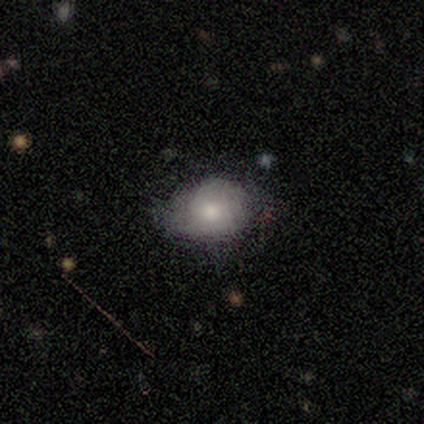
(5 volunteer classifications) smooth-or-featured: smooth: 40% (tied) | star or artifact: 40% (tied) | featured or disk: 20%
  how-rounded: in between: 100% | round: 0% | cigar-shaped: 0%
  merging: none: 67% | minor disturbance: 33% | major disturbance: 0% | merger: 0%